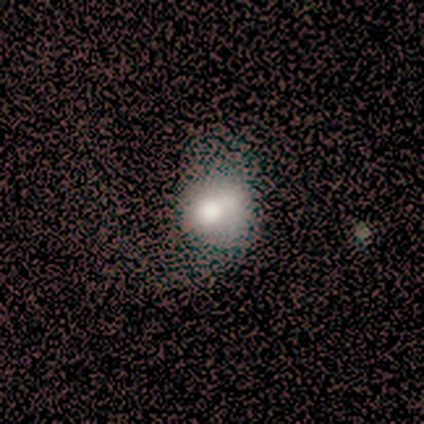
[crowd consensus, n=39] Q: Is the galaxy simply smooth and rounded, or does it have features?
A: smooth — 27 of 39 (69%).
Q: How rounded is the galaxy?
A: round — 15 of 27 (56%).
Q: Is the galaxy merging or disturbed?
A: minor disturbance — 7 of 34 (21%, tied with major disturbance and merger).